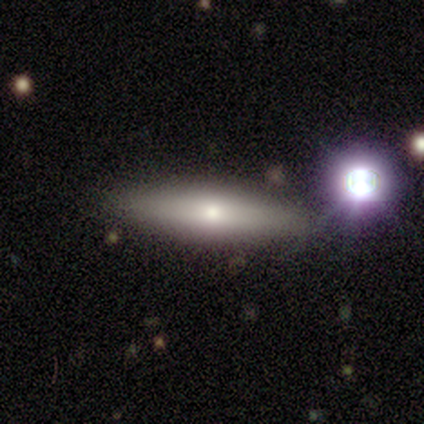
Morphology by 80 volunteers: smooth-or-featured: smooth: 50% | featured or disk: 40% | star or artifact: 10%
  how-rounded: cigar-shaped: 80% | in between: 20% | round: 0%
  merging: none: 85% | minor disturbance: 8% | merger: 4% | major disturbance: 3%